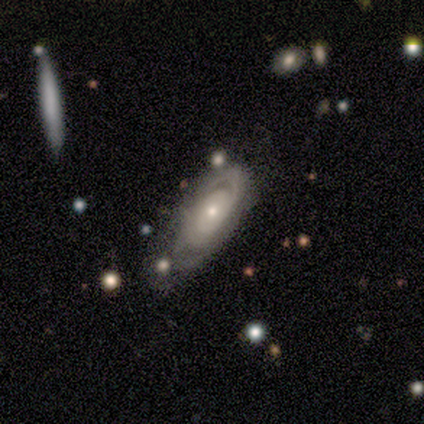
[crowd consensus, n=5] smooth-or-featured: featured or disk: 80% | smooth: 20% | star or artifact: 0%
  disk-edge-on: no: 75% | yes: 25%
    bar: no: 100% | strong: 0% | weak: 0%
    has-spiral-arms: no: 67% | yes: 33%
    bulge-size: small: 67% | moderate: 33% | dominant: 0% | large: 0% | none: 0%
  merging: minor disturbance: 60% | major disturbance: 40% | none: 0% | merger: 0%